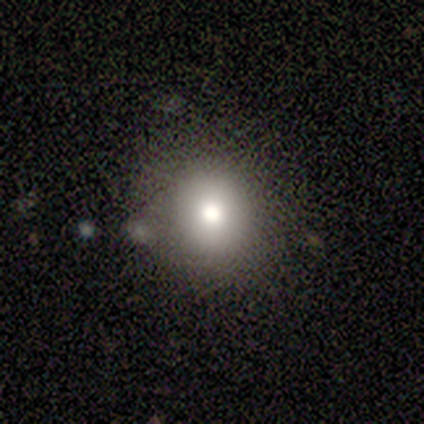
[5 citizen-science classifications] Overall: smooth (60%; featured or disk 20%). How rounded: round (100%). Merging: none (50%, tied with merger).